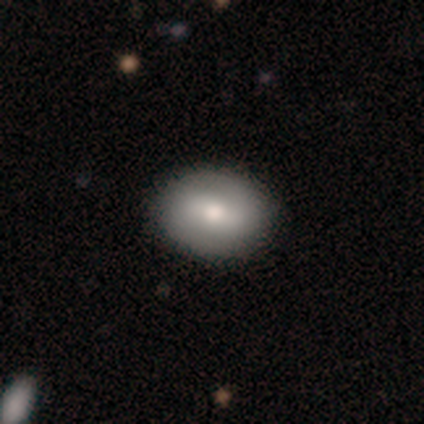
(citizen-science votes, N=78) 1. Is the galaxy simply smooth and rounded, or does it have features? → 63% smooth, 35% featured or disk, 3% star or artifact.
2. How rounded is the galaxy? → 73% in between, 27% round, 0% cigar-shaped.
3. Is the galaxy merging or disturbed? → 45% none, 5% minor disturbance, 1% merger, 0% major disturbance.